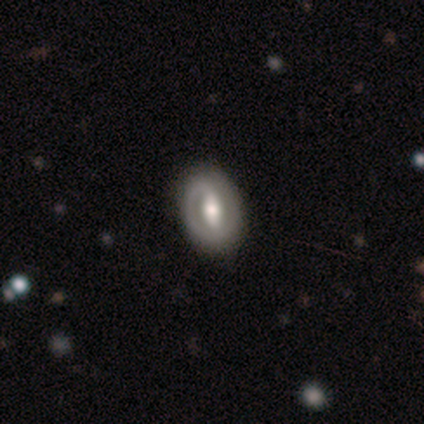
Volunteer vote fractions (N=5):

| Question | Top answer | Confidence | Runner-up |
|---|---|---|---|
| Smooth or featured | featured or disk | 80% | smooth (20%) |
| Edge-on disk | no | 100% | — |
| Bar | strong | 50% | weak (25%) |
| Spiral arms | yes | 50% | tied: no (50%) |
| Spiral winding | tight | 50% | tied: medium (50%) |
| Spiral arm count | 1 | 50% | tied: can't tell (50%) |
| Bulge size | moderate | 75% | large (25%) |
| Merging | none | 100% | — |